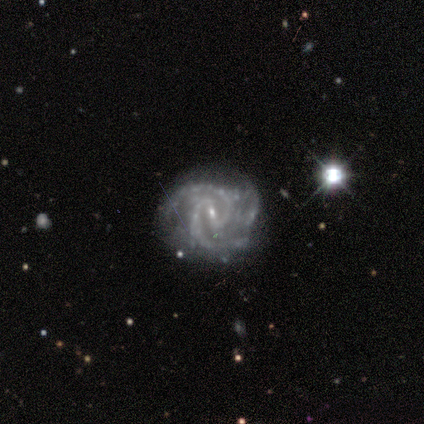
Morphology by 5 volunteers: A featured or disk galaxy (100%) with a weak bar (60%), 2 (100%) medium (80%) spiral arms (100%) and a small central bulge (100%).

Vote fractions:
- Smooth or featured? featured or disk: 100% / smooth: 0% / star or artifact: 0%
- Edge-on disk? no: 100% / yes: 0%
- Bar? weak: 60% / strong: 40% / no: 0%
- Spiral arms? yes: 100% / no: 0%
- Spiral winding? medium: 80% / tight: 20% / loose: 0%
- Spiral arm count? 2: 100% / 1: 0% / 3: 0% / 4: 0% / more than 4: 0% / can't tell: 0%
- Bulge size? small: 100% / dominant: 0% / large: 0% / moderate: 0% / none: 0%
- Merging? none: 80% / minor disturbance: 20% / major disturbance: 0% / merger: 0%